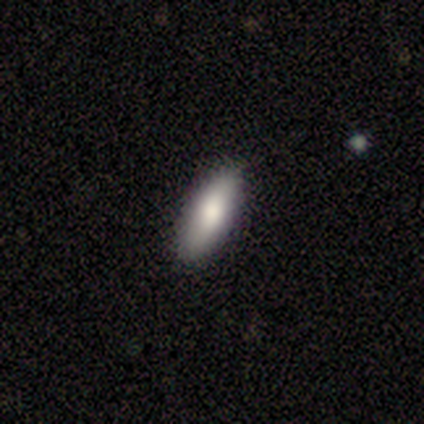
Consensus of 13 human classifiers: Smooth or featured?
  - smooth: 100% *
  - featured or disk: 0%
  - star or artifact: 0%
How rounded?
  - in between: 54% *
  - cigar-shaped: 46%
  - round: 0%
Merging?
  - none: 92% *
  - minor disturbance: 8%
  - major disturbance: 0%
  - merger: 0%